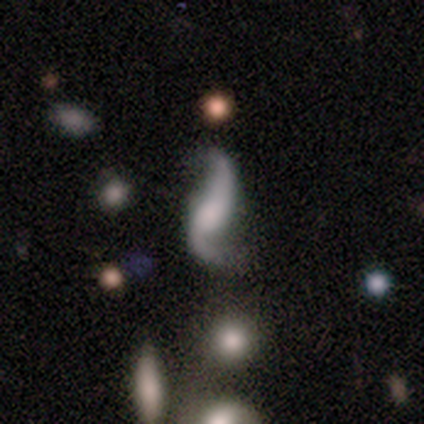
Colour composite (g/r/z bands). It shows a featured or disk galaxy (95%) with no bar (62%), 2 (100%) loose (97%) spiral arms (92%) and no central bulge (35%). Merging: none (49%).